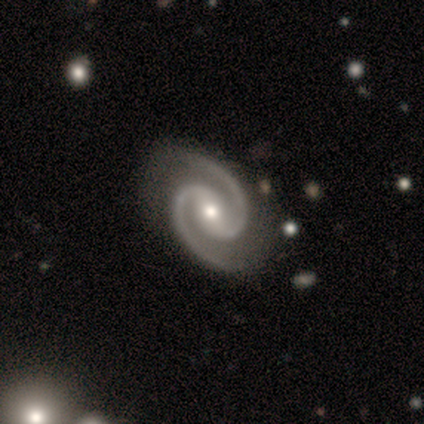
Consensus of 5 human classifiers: This appears to be a featured or disk galaxy (100%) with a weak bar (60%), 2 (100%) tight (40%, tied with medium) spiral arms (100%) and a moderate central bulge (80%). Merging: none (80%).